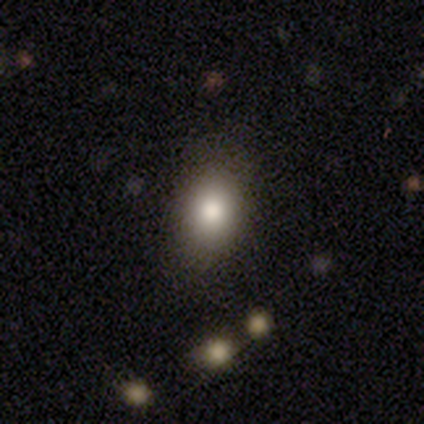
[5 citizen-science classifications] Smooth or featured?
  - smooth: 100% *
  - featured or disk: 0%
  - star or artifact: 0%
How rounded?
  - in between: 60% *
  - round: 40%
  - cigar-shaped: 0%
Merging?
  - none: 80% *
  - minor disturbance: 20%
  - major disturbance: 0%
  - merger: 0%